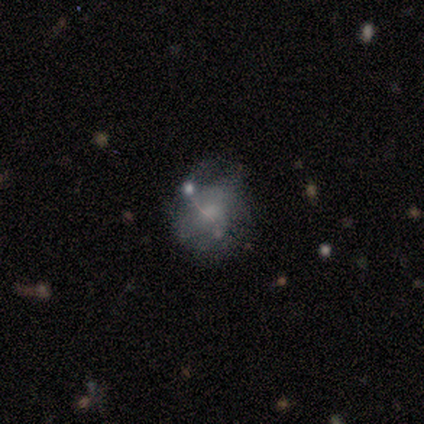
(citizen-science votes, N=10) This is likely a smooth galaxy (60%). How rounded: likely round (67%). Merging: marginally none (44%).